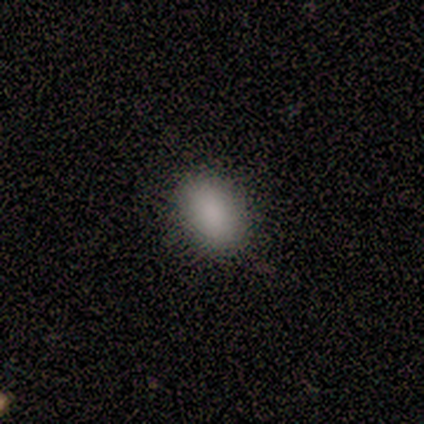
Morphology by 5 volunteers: Overall: smooth (100%). How rounded: in between (80%). Merging: none (100%).